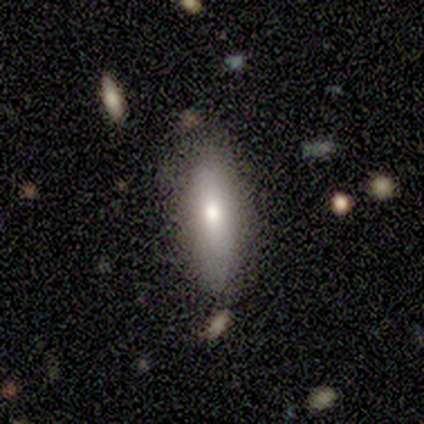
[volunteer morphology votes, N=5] This is likely a featured or disk galaxy (60%). It is likely viewed edge-on (67%). Edge-on bulge: possibly none (50%, tied with rounded). Merging: clearly none (80%).